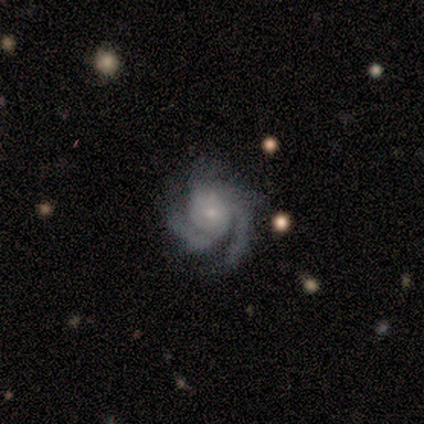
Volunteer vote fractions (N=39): Smooth or featured? featured or disk (95%)
Edge-on disk? no (100%)
Bar? no (76%)
Spiral arms? yes (100%)
Spiral winding? medium (54%)
Spiral arm count? 3 (46%)
Bulge size? small (84%)
Merging? none (79%)